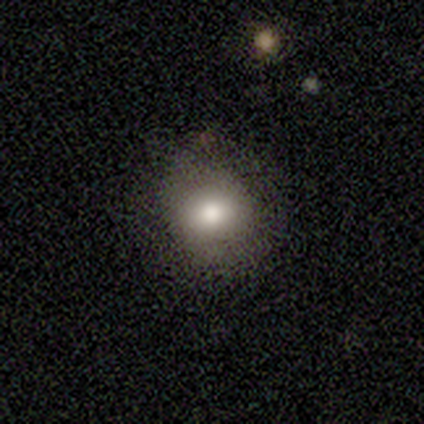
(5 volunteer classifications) Volunteers were most divided on "merging": none: 60%, minor disturbance: 40%, major disturbance: 0%, merger: 0%. More confident: smooth or featured — smooth (80%); how rounded — round (75%).